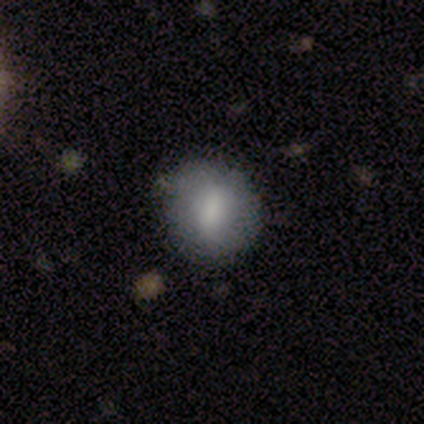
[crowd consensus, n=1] A smooth galaxy with no disk features (100%) that is round (100%). Merging: none (100%).